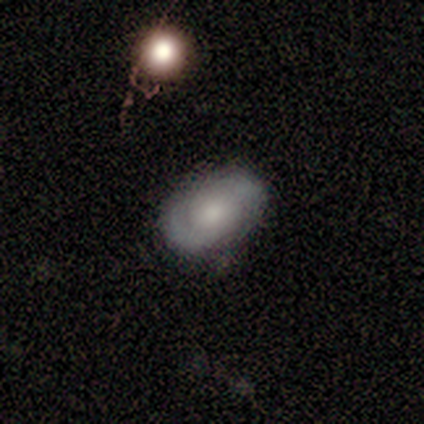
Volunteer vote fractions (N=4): A featured or disk galaxy (75%) with no bar (100%), 2 (100%) tight (100%) spiral arms (67%) and a small central bulge (67%).

Vote fractions:
- Smooth or featured? featured or disk: 75% / smooth: 25% / star or artifact: 0%
- Edge-on disk? no: 100% / yes: 0%
- Bar? no: 100% / strong: 0% / weak: 0%
- Spiral arms? yes: 67% / no: 33%
- Spiral winding? tight: 100% / medium: 0% / loose: 0%
- Spiral arm count? 2: 100% / 1: 0% / 3: 0% / 4: 0% / more than 4: 0% / can't tell: 0%
- Bulge size? small: 67% / moderate: 33% / dominant: 0% / large: 0% / none: 0%
- Merging? none: 100% / minor disturbance: 0% / major disturbance: 0% / merger: 0%